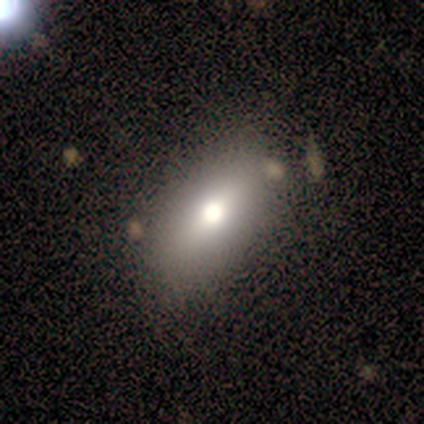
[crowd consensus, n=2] A smooth galaxy with no disk features (50%, tied with featured or disk) that is in between round and cigar-shaped (100%). Merging: none (100%).